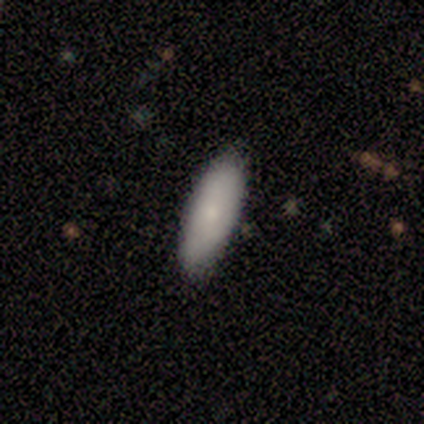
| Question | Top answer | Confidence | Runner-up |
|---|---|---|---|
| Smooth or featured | smooth | 82% | featured or disk (16%) |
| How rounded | in between | 65% | cigar-shaped (35%) |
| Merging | none | 89% | minor disturbance (8%) |